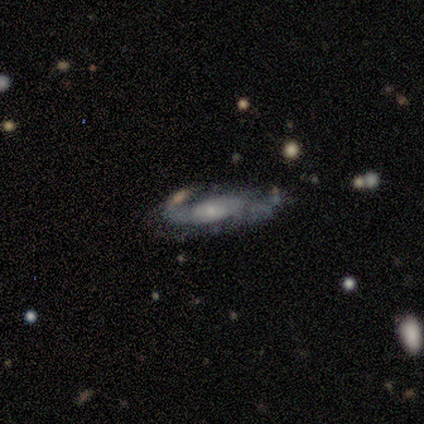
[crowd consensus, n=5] This is clearly a featured or disk galaxy (100%). It is clearly not viewed edge-on (80%). Bar: possibly weak (50%, tied with no). Spiral arm pattern: likely yes (75%). Spiral arm count: likely 2 (67%). Spiral winding: likely tight (67%). Central bulge: likely small (75%). Merging: likely none (60%).